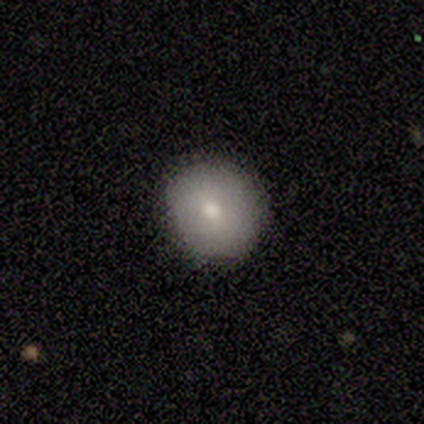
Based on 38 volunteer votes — smooth 82%, featured or disk 11%, star or artifact 8%. Down the decision tree: how rounded — round (84%); merging — none (86%).